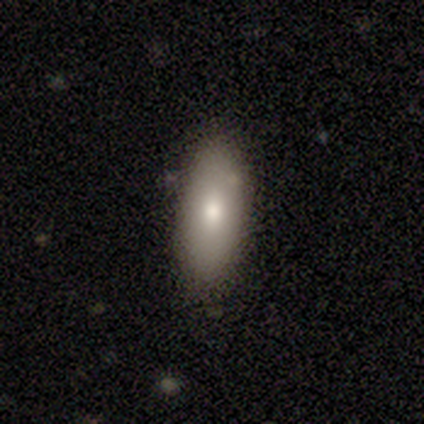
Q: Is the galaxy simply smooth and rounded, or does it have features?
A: smooth — 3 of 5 (60%).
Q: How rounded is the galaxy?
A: in between — 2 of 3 (67%).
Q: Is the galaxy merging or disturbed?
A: none — 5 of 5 (100%).